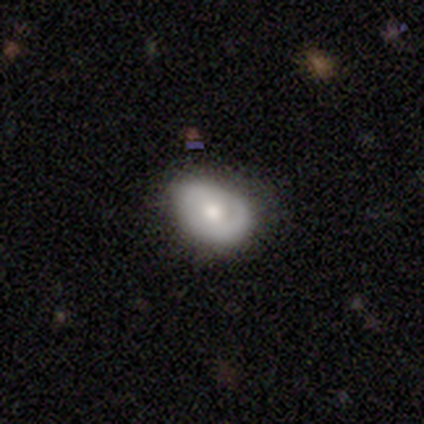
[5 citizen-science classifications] smooth_or_featured: smooth (p=1.00)
how_rounded: in between (p=0.80) [alt: round p=0.20]
merging: none (p=0.60) [alt: minor disturbance p=0.20]